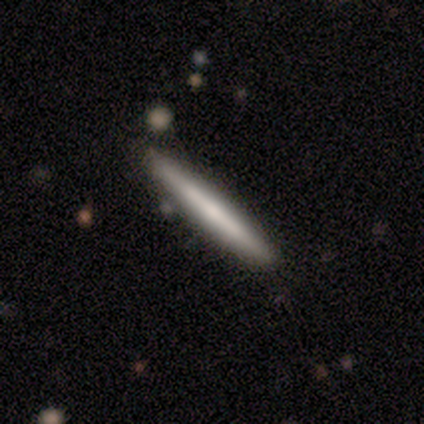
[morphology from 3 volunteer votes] featured or disk 67%, smooth 33%, star or artifact 0%. Down the decision tree: edge-on disk — yes (100%); edge-on bulge — boxy (50%, tied with rounded); merging — none (67%).